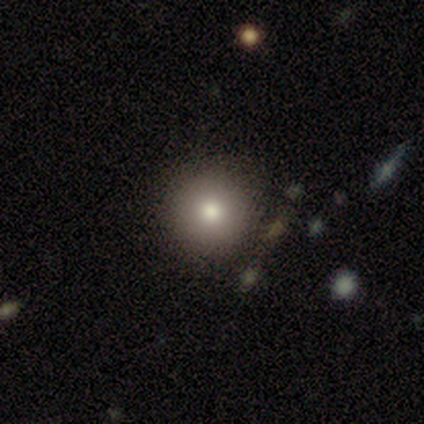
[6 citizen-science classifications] A smooth galaxy with no disk features (67%) that is round (100%). Merging: none (83%).